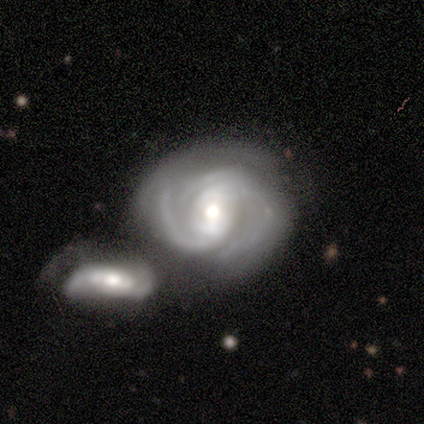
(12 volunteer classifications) Smooth or featured?
  - featured or disk: 83% *
  - smooth: 8%
  - star or artifact: 8%
Edge-on disk?
  - no: 100% *
  - yes: 0%
Bar?
  - strong: 40% *
  - weak: 30%
  - no: 30%
Spiral arms?
  - yes: 100% *
  - no: 0%
Spiral winding?
  - tight: 50% * (tied)
  - medium: 50% * (tied)
  - loose: 0%
Spiral arm count?
  - 2: 30% *
  - 3: 20%
  - 4: 20%
  - can't tell: 20%
  - more than 4: 10%
  - 1: 0%
Bulge size?
  - large: 40% * (tied)
  - moderate: 40% * (tied)
  - dominant: 10%
  - small: 10%
  - none: 0%
Merging?
  - merger: 45% *
  - none: 27%
  - minor disturbance: 18%
  - major disturbance: 9%